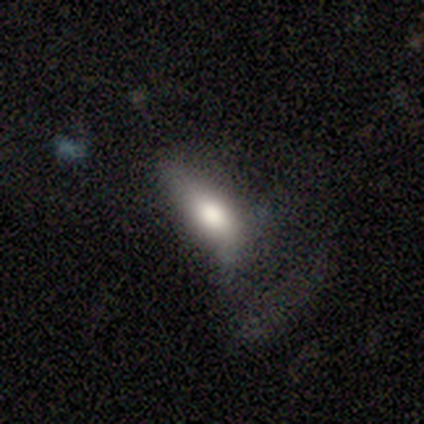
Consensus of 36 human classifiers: Smooth or featured? 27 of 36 (75%) said smooth. How rounded? 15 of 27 (56%) said in between. Merging? 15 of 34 (44%) said major disturbance.